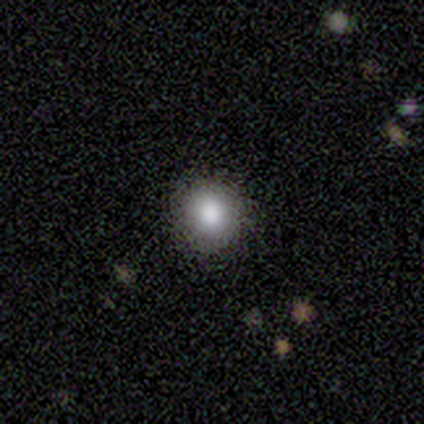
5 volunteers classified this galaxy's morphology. smooth_or_featured: smooth (p=0.80) [alt: featured or disk p=0.20]
how_rounded: round (p=1.00)
merging: none (p=1.00)